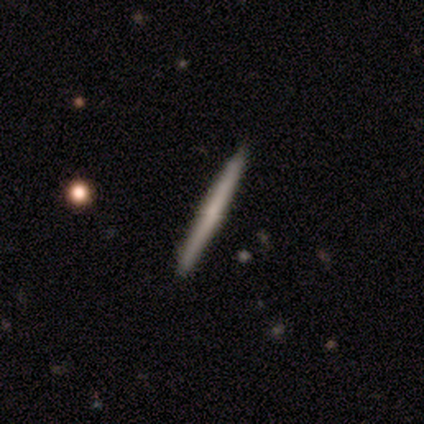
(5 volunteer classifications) A featured or disk galaxy (60%) viewed edge-on (100%) with no central bulge (100%). Merging: none (100%).